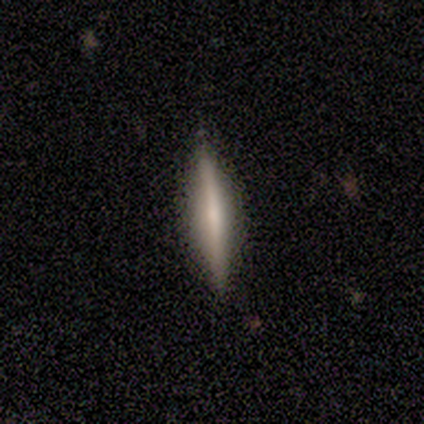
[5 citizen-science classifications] smooth-or-featured: featured or disk: 80% | smooth: 20% | star or artifact: 0%
  disk-edge-on: yes: 100% | no: 0%
    edge-on-bulge: none: 75% | boxy: 25% | rounded: 0%
  merging: none: 100% | minor disturbance: 0% | major disturbance: 0% | merger: 0%